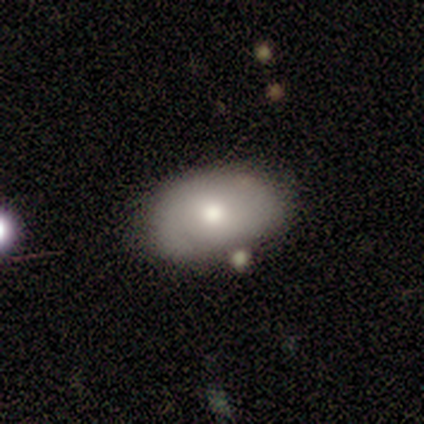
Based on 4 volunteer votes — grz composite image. It shows a smooth galaxy with no disk features (75%) that is in between round and cigar-shaped (100%). Merging: none (50%).